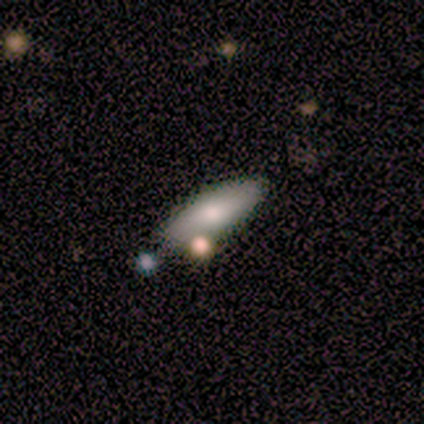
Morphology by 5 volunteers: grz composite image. It shows a smooth galaxy with no disk features (80%) that is in between round and cigar-shaped (50%, tied with cigar-shaped). Merging: none (80%).